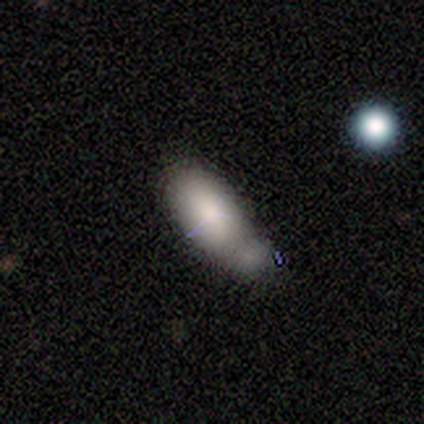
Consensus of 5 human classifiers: Q: Smooth or featured?
A: smooth (60%); runner-up: featured or disk (20%)
Q: How rounded?
A: in between (100%)
Q: Merging?
A: major disturbance (50%); runner-up: none (25%)